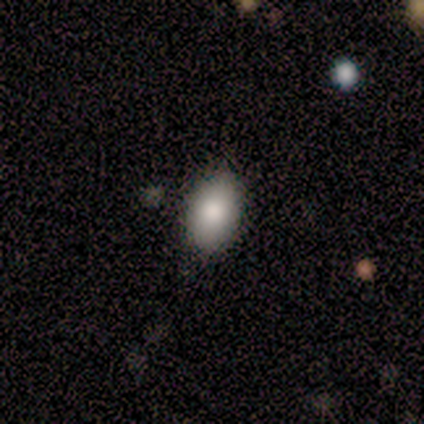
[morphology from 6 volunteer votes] smooth-or-featured: smooth: 83% | featured or disk: 17% | star or artifact: 0%
  how-rounded: in between: 100% | round: 0% | cigar-shaped: 0%
  merging: none: 67% | minor disturbance: 33% | major disturbance: 0% | merger: 0%